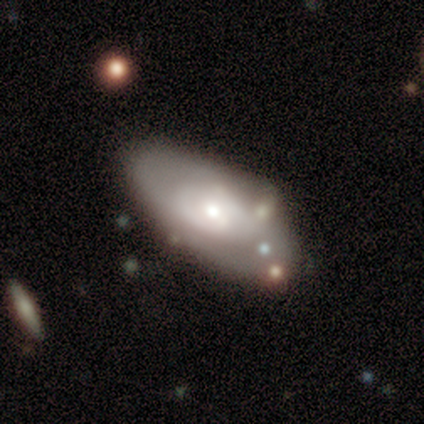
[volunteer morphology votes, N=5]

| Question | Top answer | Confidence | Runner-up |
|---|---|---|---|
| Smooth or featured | featured or disk | 60% | smooth (40%) |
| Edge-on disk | no | 100% | — |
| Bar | no | 67% | weak (33%) |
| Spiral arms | yes | 67% | no (33%) |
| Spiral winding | medium | 100% | — |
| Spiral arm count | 2 | 50% | tied: can't tell (50%) |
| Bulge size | moderate | 67% | small (33%) |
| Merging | none | 60% | minor disturbance (20%) |